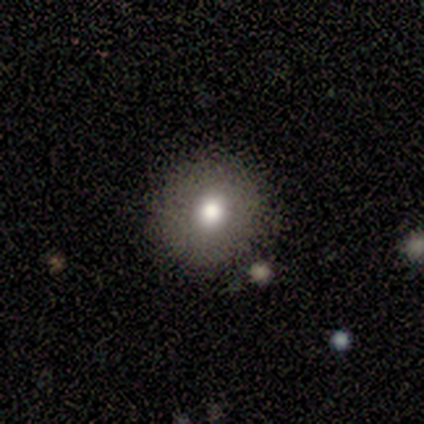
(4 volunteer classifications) This appears to be a featured or disk galaxy (75%) with no bar (67%), no spiral arms (100%) and a moderate central bulge (100%). Merging: none (100%).